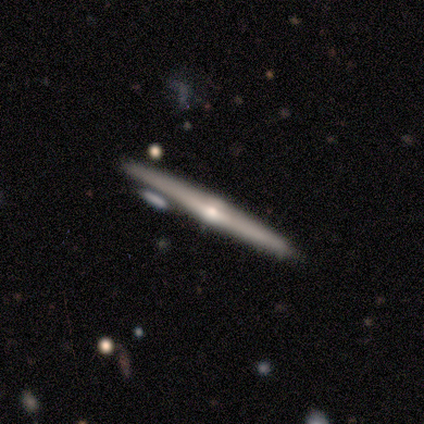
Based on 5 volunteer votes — Smooth or featured?
  - featured or disk: 80% *
  - smooth: 20%
  - star or artifact: 0%
Edge-on disk?
  - yes: 100% *
  - no: 0%
Edge-on bulge?
  - rounded: 75% *
  - none: 25%
  - boxy: 0%
Merging?
  - none: 100% *
  - minor disturbance: 0%
  - major disturbance: 0%
  - merger: 0%